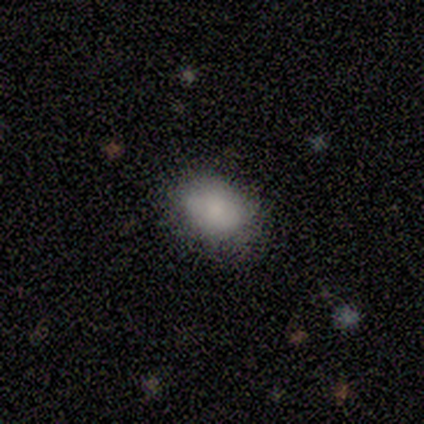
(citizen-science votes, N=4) A smooth galaxy with no disk features (100%) that is in between round and cigar-shaped (100%). Merging: none (75%).